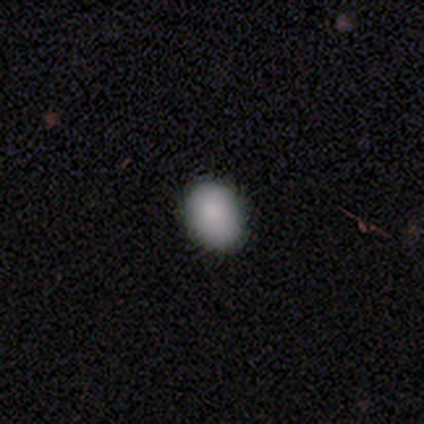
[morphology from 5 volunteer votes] A smooth galaxy with no disk features (80%) that is in between round and cigar-shaped (50%).

Vote fractions:
- Smooth or featured? smooth: 80% / featured or disk: 20% / star or artifact: 0%
- How rounded? in between: 50% / round: 25% / cigar-shaped: 25%
- Merging? none: 80% / minor disturbance: 20% / major disturbance: 0% / merger: 0%